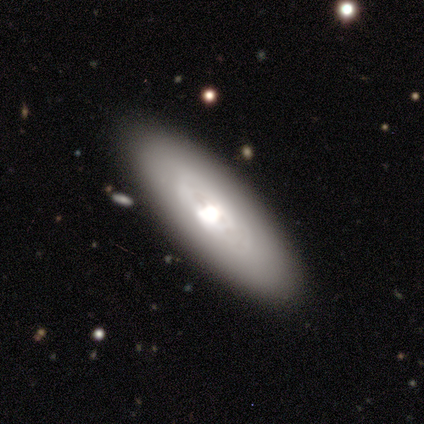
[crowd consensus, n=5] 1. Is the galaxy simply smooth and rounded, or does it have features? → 60% featured or disk, 40% smooth, 0% star or artifact.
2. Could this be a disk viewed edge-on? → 67% no, 33% yes.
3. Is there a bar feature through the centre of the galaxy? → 100% no, 0% strong, 0% weak.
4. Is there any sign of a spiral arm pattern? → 50% yes (tied), 50% no (tied).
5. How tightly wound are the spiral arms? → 100% tight, 0% medium, 0% loose.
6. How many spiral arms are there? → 100% can't tell, 0% 1, 0% 2, 0% 3, 0% 4, 0% more than 4.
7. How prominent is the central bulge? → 50% large (tied), 50% moderate (tied), 0% dominant, 0% small, 0% none.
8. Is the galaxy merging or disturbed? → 60% none, 40% minor disturbance, 0% major disturbance, 0% merger.